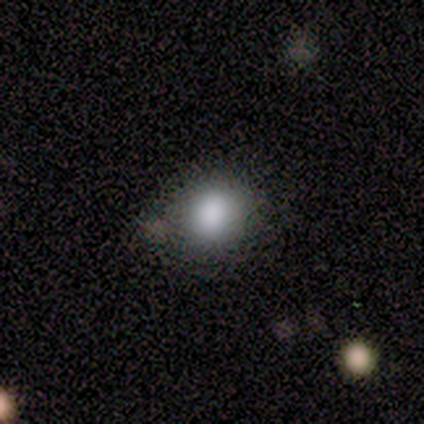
smooth-or-featured: smooth: 80% | star or artifact: 20% | featured or disk: 0%
  how-rounded: round: 100% | in between: 0% | cigar-shaped: 0%
  merging: none: 100% | minor disturbance: 0% | major disturbance: 0% | merger: 0%